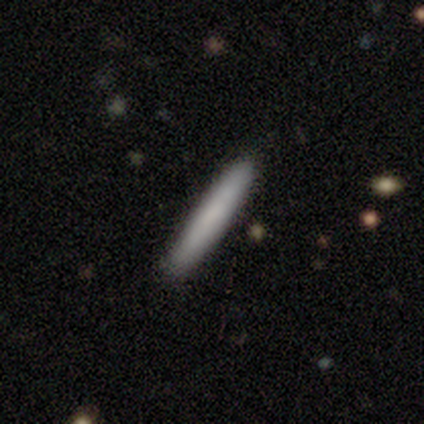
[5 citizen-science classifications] A smooth galaxy with no disk features (100%) that is cigar-shaped (100%).

Vote fractions:
- Smooth or featured? smooth: 100% / featured or disk: 0% / star or artifact: 0%
- How rounded? cigar-shaped: 100% / round: 0% / in between: 0%
- Merging? none: 100% / minor disturbance: 0% / major disturbance: 0% / merger: 0%